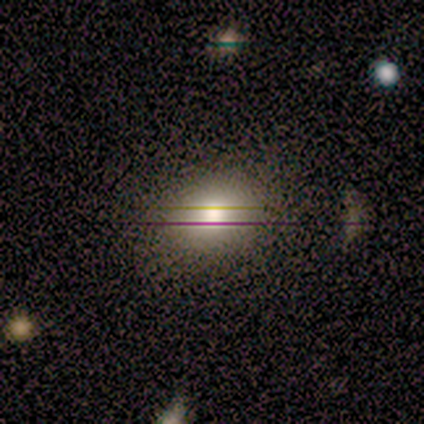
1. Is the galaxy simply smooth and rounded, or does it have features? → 79% smooth, 13% star or artifact, 8% featured or disk.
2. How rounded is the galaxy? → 61% in between, 39% round, 0% cigar-shaped.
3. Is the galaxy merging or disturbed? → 59% none, 6% merger, 3% minor disturbance, 3% major disturbance.